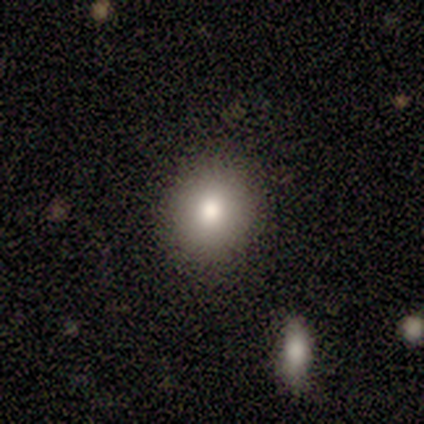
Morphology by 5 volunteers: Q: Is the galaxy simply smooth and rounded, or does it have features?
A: smooth — 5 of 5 (100%).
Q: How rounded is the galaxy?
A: round — 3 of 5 (60%).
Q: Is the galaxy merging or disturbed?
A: none — 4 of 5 (80%).